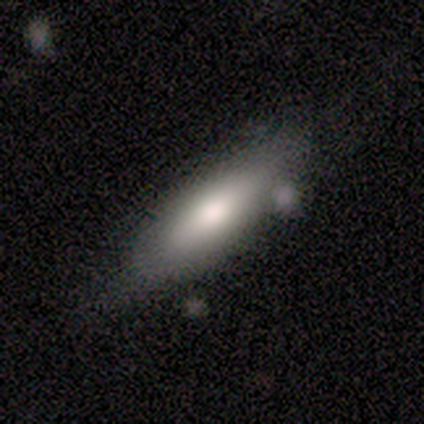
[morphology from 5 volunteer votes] smooth 100%, featured or disk 0%, star or artifact 0%. Down the decision tree: how rounded — cigar-shaped (80%); merging — none (80%).